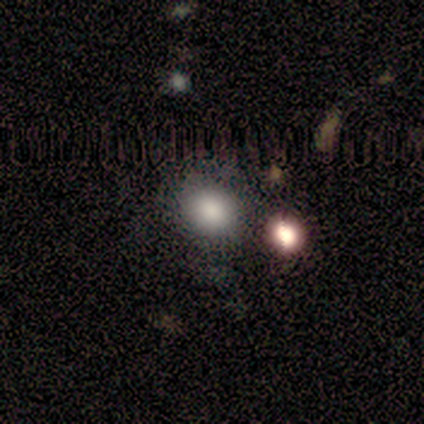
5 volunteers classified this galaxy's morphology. Smooth or featured: smooth — 60% (featured or disk — 40%)
How rounded: round — 67% (in between — 33%)
Merging: none — 40% (tied with merger — 40%)